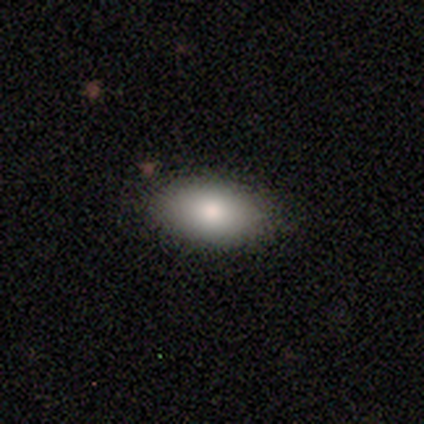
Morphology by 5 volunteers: This is clearly a smooth galaxy (80%). How rounded: clearly in between (100%). Merging: clearly none (80%).